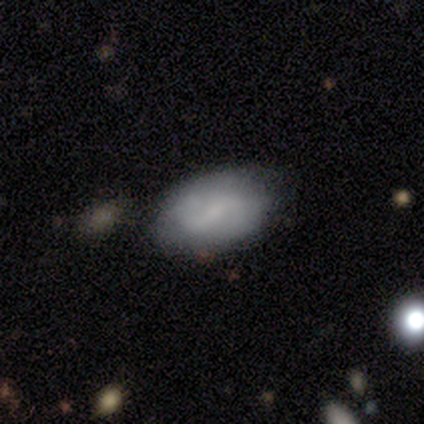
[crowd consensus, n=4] This is likely a smooth galaxy (75%). How rounded: clearly in between (100%). Merging: possibly none (50%, tied with minor disturbance).